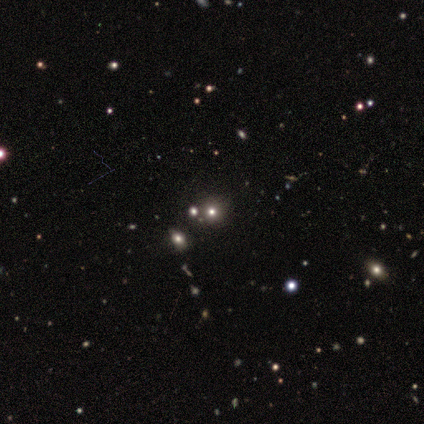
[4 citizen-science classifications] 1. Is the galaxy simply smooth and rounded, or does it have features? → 75% smooth, 25% star or artifact, 0% featured or disk.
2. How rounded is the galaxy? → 100% round, 0% in between, 0% cigar-shaped.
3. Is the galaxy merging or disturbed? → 100% none, 0% minor disturbance, 0% major disturbance, 0% merger.